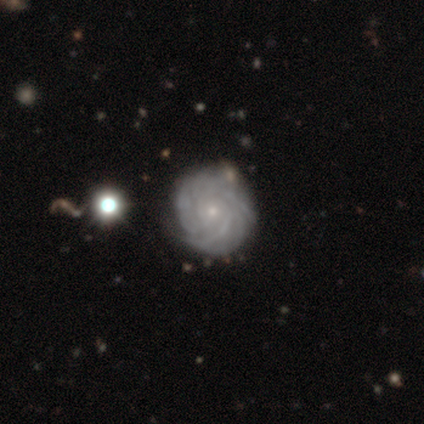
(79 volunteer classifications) A featured or disk galaxy (90%) with no bar (89%), tight (79%) spiral arms (100%) and a small central bulge (89%).

Vote fractions:
- Smooth or featured? featured or disk: 90% / smooth: 5% / star or artifact: 5%
- Edge-on disk? no: 100% / yes: 0%
- Bar? no: 89% / weak: 10% / strong: 1%
- Spiral arms? yes: 100% / no: 0%
- Spiral winding? tight: 79% / medium: 15% / loose: 6%
- Spiral arm count? can't tell: 42% / more than 4: 25% / 3: 14% / 4: 10% / 2: 6% / 1: 3%
- Bulge size? small: 89% / moderate: 11% / dominant: 0% / large: 0% / none: 0%
- Merging? none: 45% / minor disturbance: 11% / merger: 4% / major disturbance: 0%